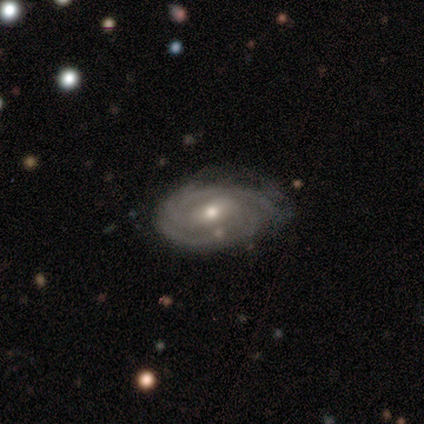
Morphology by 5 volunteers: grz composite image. It shows a featured or disk galaxy (100%) with a weak bar (80%), 2 (60%) tight (60%) spiral arms (100%) and a moderate central bulge (60%). Merging: none (40%, tied with minor disturbance).